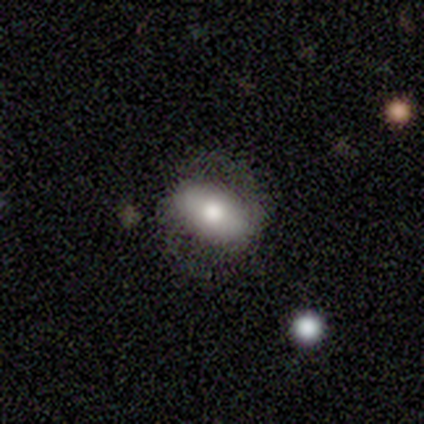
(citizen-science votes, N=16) Morphology: type=smooth (56%); roundness=in between (100%); merging=none (77%).